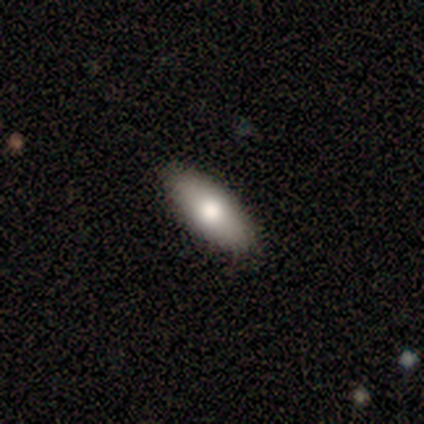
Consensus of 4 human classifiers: Smooth or featured: smooth — 75% (star or artifact — 25%)
How rounded: in between — 100%
Merging: none — 100%